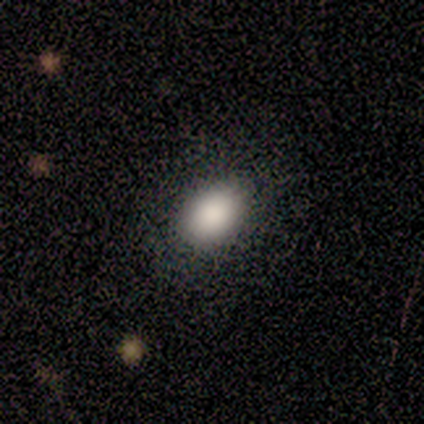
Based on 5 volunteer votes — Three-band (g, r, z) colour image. It shows a smooth galaxy with no disk features (100%) that is in between round and cigar-shaped (100%). Merging: none (100%).